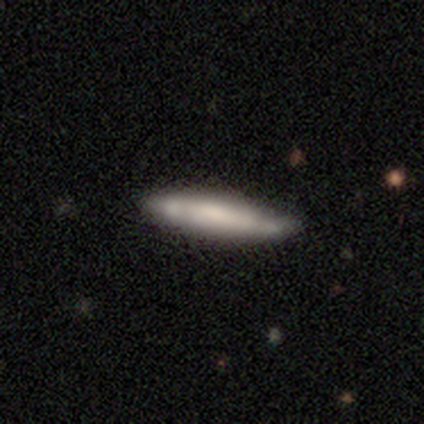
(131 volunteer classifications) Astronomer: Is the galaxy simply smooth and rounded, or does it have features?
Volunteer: smooth — 56% (runner-up: featured or disk, 41%).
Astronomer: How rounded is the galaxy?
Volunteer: cigar-shaped — 93%.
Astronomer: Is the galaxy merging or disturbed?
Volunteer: none — 71%.